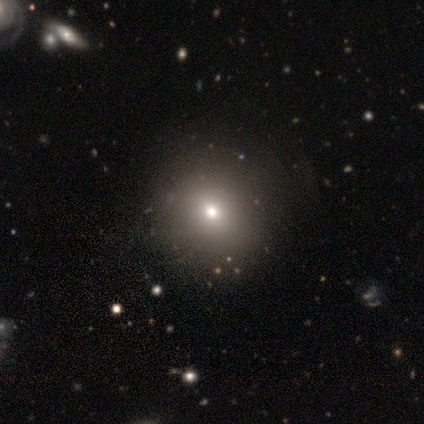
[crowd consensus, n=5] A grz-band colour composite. It shows a smooth galaxy with no disk features (80%) that is round (100%). Merging: none (100%).